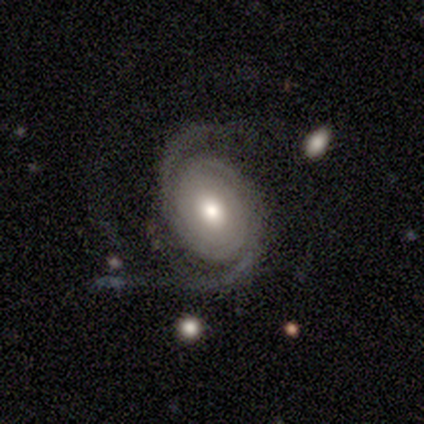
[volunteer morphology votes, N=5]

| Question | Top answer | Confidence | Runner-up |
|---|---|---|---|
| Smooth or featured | featured or disk | 100% | — |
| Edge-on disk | no | 100% | — |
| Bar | no | 80% | weak (20%) |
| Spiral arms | yes | 100% | — |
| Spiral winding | tight | 80% | medium (20%) |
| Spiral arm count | can't tell | 60% | 2 (20%) |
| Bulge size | moderate | 80% | dominant (20%) |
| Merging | none | 40% | tied: merger (40%) |